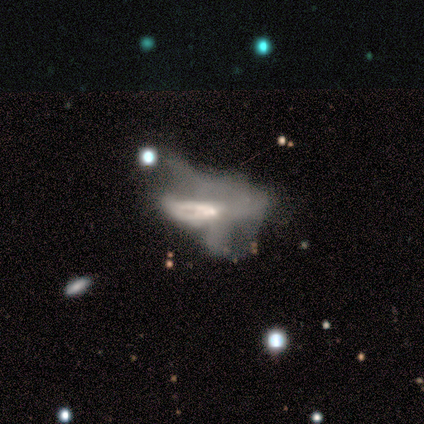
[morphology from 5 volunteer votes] Smooth or featured?
  - featured or disk: 80% *
  - smooth: 20%
  - star or artifact: 0%
Edge-on disk?
  - no: 100% *
  - yes: 0%
Bar?
  - no: 100% *
  - strong: 0%
  - weak: 0%
Spiral arms?
  - no: 100% *
  - yes: 0%
Bulge size?
  - small: 75% *
  - moderate: 25%
  - dominant: 0%
  - large: 0%
  - none: 0%
Merging?
  - major disturbance: 100% *
  - none: 0%
  - minor disturbance: 0%
  - merger: 0%